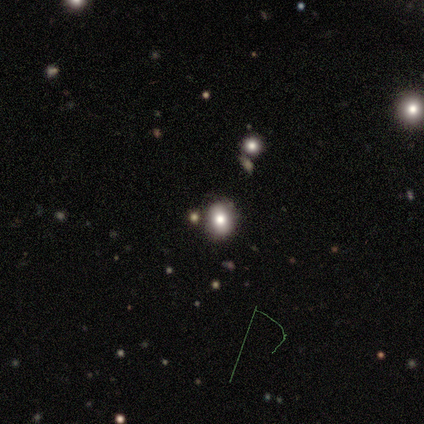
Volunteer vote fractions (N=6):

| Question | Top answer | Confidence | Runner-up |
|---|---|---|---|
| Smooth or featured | smooth | 67% | star or artifact (33%) |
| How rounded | round | 75% | in between (25%) |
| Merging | none | 100% | — |